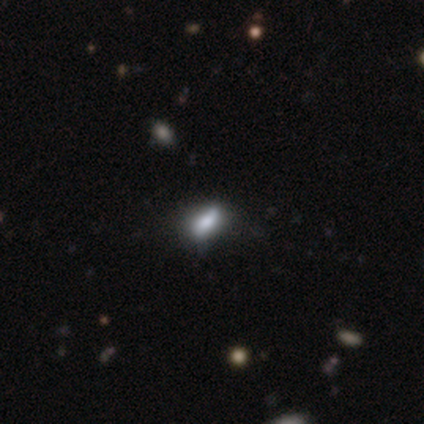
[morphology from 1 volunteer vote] A smooth galaxy with no disk features (100%) that is in between round and cigar-shaped (100%). Merging: none (100%).